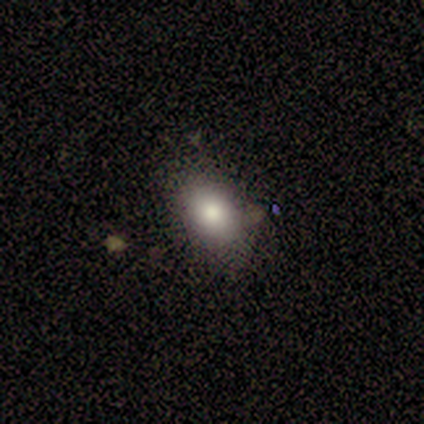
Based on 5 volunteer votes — A smooth galaxy with no disk features (100%) that is in between round and cigar-shaped (80%).

Vote fractions:
- Smooth or featured? smooth: 100% / featured or disk: 0% / star or artifact: 0%
- How rounded? in between: 80% / round: 20% / cigar-shaped: 0%
- Merging? none: 100% / minor disturbance: 0% / major disturbance: 0% / merger: 0%